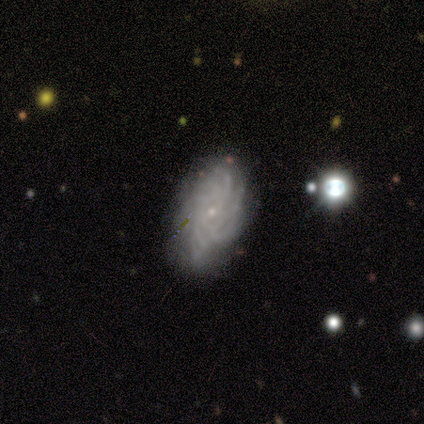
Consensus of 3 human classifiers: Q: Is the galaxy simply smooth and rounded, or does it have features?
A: featured or disk — 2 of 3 (67%).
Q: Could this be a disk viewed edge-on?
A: no — 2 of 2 (100%).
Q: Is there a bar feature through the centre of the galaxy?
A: no — 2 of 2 (100%).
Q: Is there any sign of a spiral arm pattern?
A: yes — 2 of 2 (100%).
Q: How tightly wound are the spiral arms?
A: tight — 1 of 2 (50%, tied with loose).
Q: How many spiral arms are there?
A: more than 4 — 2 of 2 (100%).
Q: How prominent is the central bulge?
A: small — 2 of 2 (100%).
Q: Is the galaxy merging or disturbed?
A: none — 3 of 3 (100%).